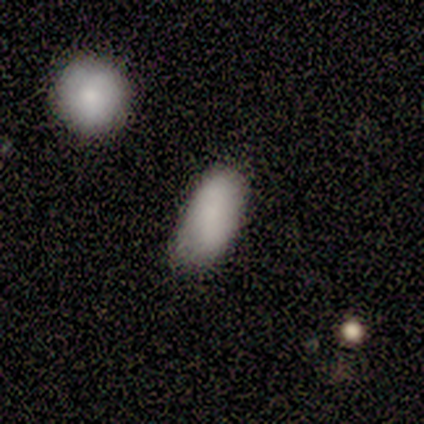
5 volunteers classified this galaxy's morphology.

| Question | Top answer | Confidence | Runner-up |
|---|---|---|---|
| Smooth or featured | smooth | 80% | featured or disk (20%) |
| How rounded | in between | 50% | round (25%) |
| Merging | none | 40% | tied: minor disturbance (40%) |